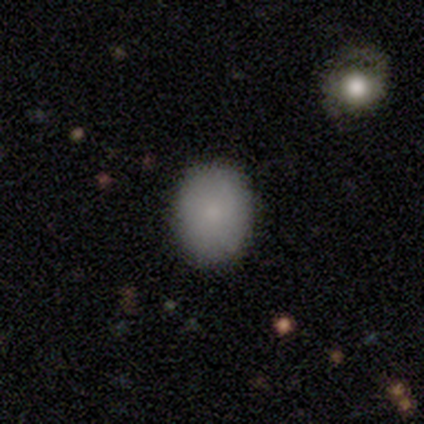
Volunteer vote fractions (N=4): smooth 100%, featured or disk 0%, star or artifact 0%. Down the decision tree: how rounded — in between (100%); merging — none (100%).